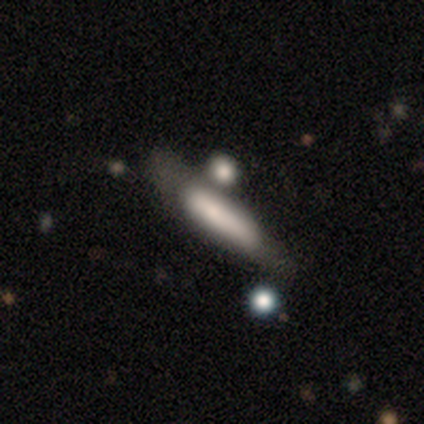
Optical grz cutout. It shows a smooth galaxy with no disk features (72%) that is cigar-shaped (90%). Merging: merger (50%).